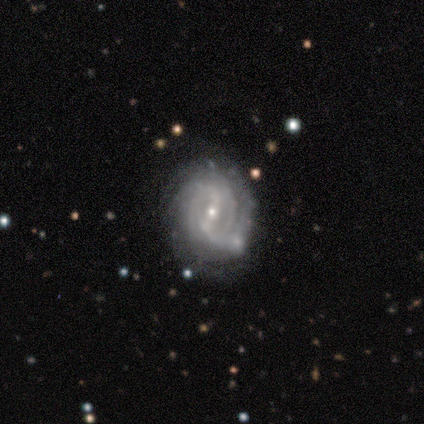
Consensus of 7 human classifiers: Smooth or featured? featured or disk (100%)
Edge-on disk? no (71%)
Bar? weak (60%)
Spiral arms? yes (100%)
Spiral winding? tight (80%)
Spiral arm count? can't tell (40%)
Bulge size? small (100%)
Merging? none (100%)